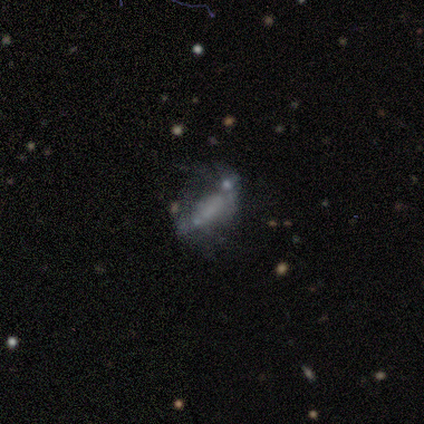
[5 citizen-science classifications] Volunteers were most divided on "smooth or featured" (2-way tie): smooth: 40%, featured or disk: 40%, star or artifact: 20%; "how rounded" (2-way tie): in between: 50%, cigar-shaped: 50%, round: 0%. More confident: merging — none (50%).